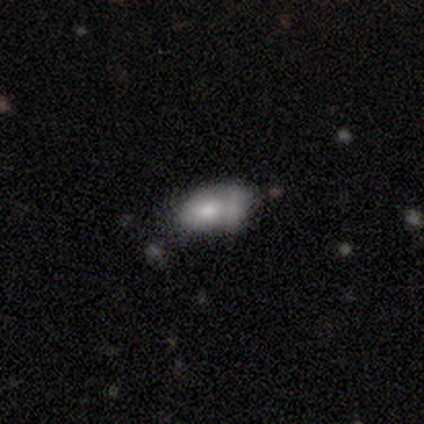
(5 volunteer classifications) This appears to be a smooth galaxy with no disk features (100%) that is in between round and cigar-shaped (100%). Merging: none (80%).